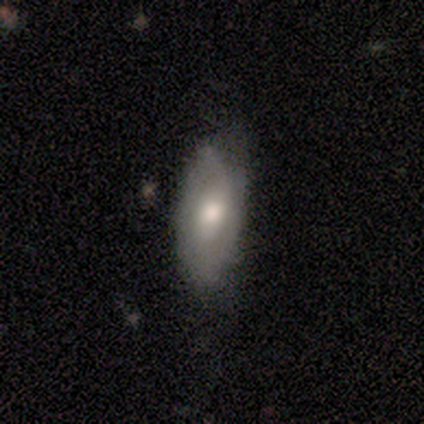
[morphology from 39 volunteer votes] A featured or disk galaxy (54%) with no bar (62%), 2 (50%) tight (42%) spiral arms (57%) and a moderate central bulge (67%).

Vote fractions:
- Smooth or featured? featured or disk: 54% / smooth: 44% / star or artifact: 3%
- Edge-on disk? no: 100% / yes: 0%
- Bar? no: 62% / weak: 33% / strong: 5%
- Spiral arms? yes: 57% / no: 43%
- Spiral winding? tight: 42% / medium: 33% / loose: 25%
- Spiral arm count? 2: 50% / can't tell: 33% / 1: 8% / 4: 8% / 3: 0% / more than 4: 0%
- Bulge size? moderate: 67% / large: 24% / dominant: 5% / small: 5% / none: 0%
- Merging? none: 74% / minor disturbance: 16% / major disturbance: 5% / merger: 5%